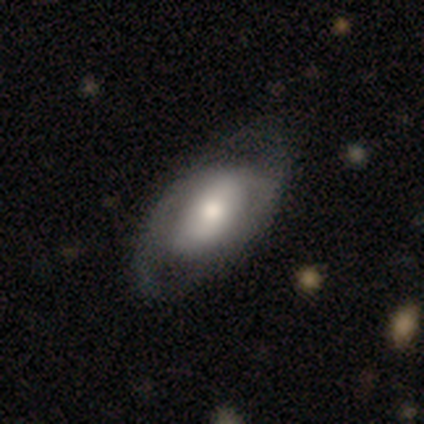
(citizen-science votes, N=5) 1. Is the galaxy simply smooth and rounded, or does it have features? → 60% featured or disk, 40% smooth, 0% star or artifact.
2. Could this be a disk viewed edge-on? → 100% no, 0% yes.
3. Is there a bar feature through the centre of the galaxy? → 67% no, 33% strong, 0% weak.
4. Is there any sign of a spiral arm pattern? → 67% no, 33% yes.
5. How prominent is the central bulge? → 33% dominant (tied), 33% moderate (tied), 33% none (tied), 0% large, 0% small.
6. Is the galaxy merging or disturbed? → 80% minor disturbance, 20% none, 0% major disturbance, 0% merger.